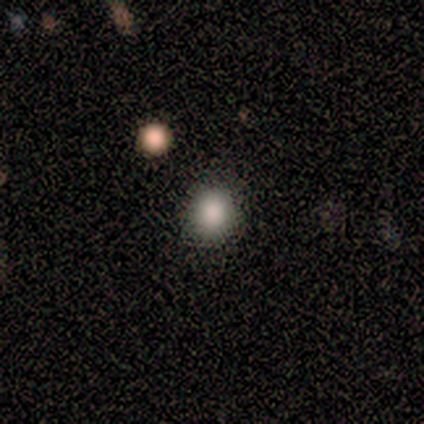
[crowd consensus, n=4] Overall: smooth (100%). How rounded: round (100%). Merging: none (75%).